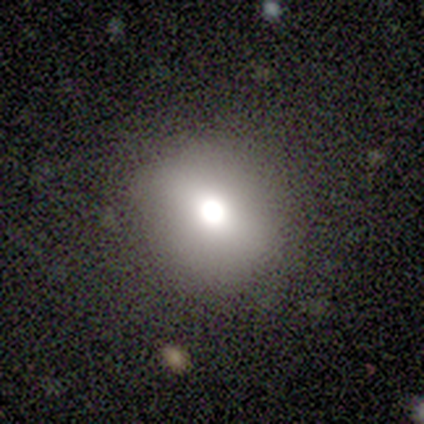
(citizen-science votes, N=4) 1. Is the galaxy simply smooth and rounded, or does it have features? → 75% smooth, 25% featured or disk, 0% star or artifact.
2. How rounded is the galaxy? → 67% round, 33% in between, 0% cigar-shaped.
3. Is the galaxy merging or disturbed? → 75% none, 25% minor disturbance, 0% major disturbance, 0% merger.